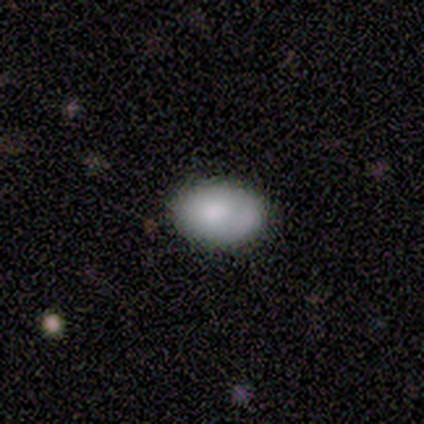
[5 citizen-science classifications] Morphology: type=smooth (100%); roundness=in between (100%); merging=none (100%).